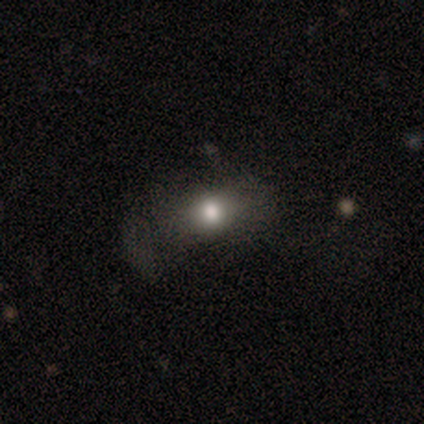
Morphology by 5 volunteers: Overall: smooth (80%). How rounded: round (50%, tied with in between). Merging: none (75%).